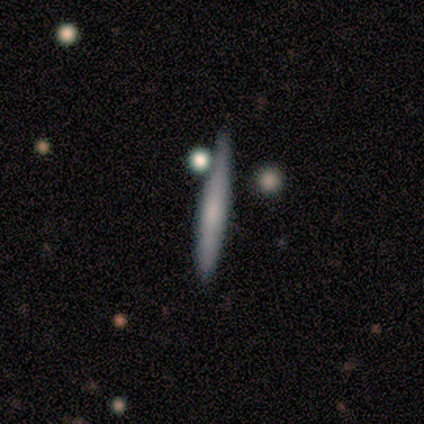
Smooth or featured: smooth — 80% (featured or disk — 20%)
How rounded: cigar-shaped — 100%
Merging: none — 100%